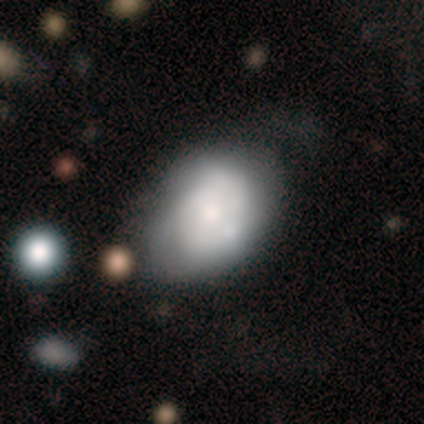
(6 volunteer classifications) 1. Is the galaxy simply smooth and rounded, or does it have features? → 50% smooth (tied), 50% featured or disk (tied), 0% star or artifact.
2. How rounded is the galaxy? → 67% in between, 33% round, 0% cigar-shaped.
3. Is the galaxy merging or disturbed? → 67% minor disturbance, 33% none, 0% major disturbance, 0% merger.